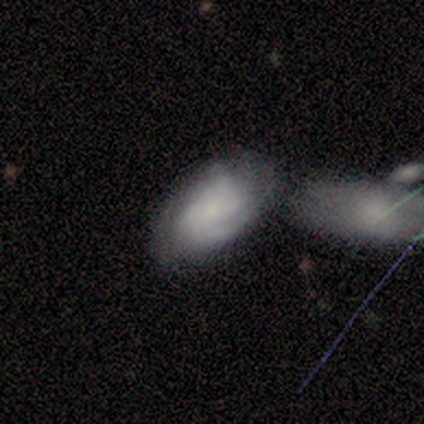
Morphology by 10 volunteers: A featured or disk galaxy (90%) with no bar (75%), tight (50%, tied with medium) spiral arms (75%) and a small central bulge (62%).

Vote fractions:
- Smooth or featured? featured or disk: 90% / smooth: 10% / star or artifact: 0%
- Edge-on disk? no: 89% / yes: 11%
- Bar? no: 75% / weak: 25% / strong: 0%
- Spiral arms? yes: 75% / no: 25%
- Spiral winding? tight: 50% (tied) / medium: 50% (tied) / loose: 0%
- Spiral arm count? can't tell: 50% / 2: 33% / 1: 17% / 3: 0% / 4: 0% / more than 4: 0%
- Bulge size? small: 62% / none: 25% / moderate: 12% / dominant: 0% / large: 0%
- Merging? none: 50% / merger: 30% / minor disturbance: 20% / major disturbance: 0%